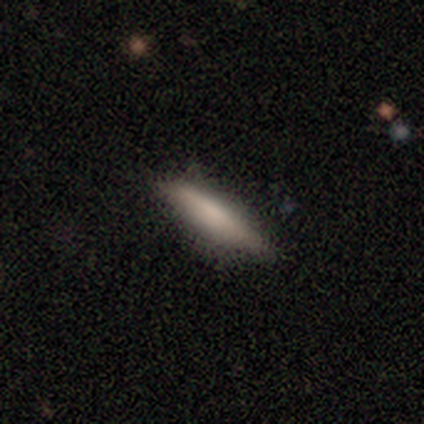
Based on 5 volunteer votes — Overall: smooth (100%). How rounded: cigar-shaped (100%). Merging: none (80%).